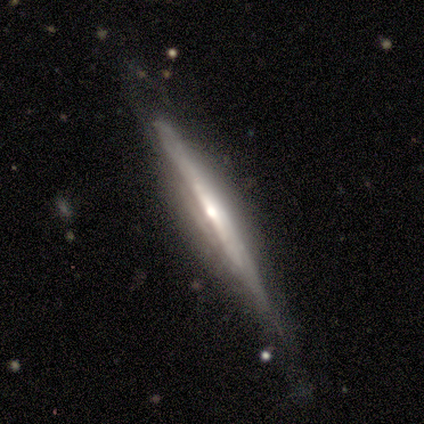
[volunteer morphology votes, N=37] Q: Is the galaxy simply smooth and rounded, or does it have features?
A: featured or disk — 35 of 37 (95%).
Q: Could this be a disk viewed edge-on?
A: yes — 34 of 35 (97%).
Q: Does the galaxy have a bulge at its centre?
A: rounded — 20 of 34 (59%).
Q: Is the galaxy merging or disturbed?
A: none — 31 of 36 (86%).